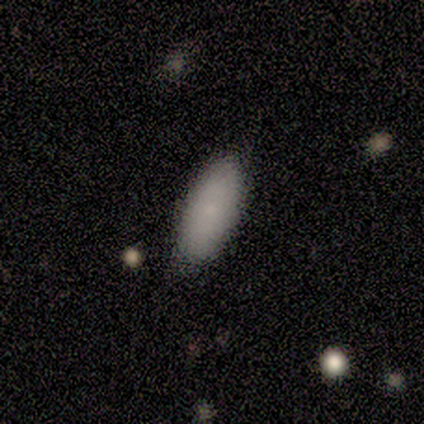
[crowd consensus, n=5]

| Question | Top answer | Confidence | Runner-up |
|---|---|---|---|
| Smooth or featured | smooth | 80% | star or artifact (20%) |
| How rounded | in between | 75% | cigar-shaped (25%) |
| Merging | none | 50% | tied: minor disturbance (50%) |